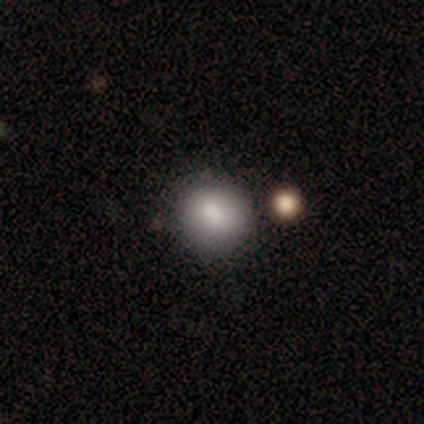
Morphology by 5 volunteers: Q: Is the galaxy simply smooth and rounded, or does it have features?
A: smooth — 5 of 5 (100%).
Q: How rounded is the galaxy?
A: round — 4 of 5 (80%).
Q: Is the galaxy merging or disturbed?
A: none — 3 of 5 (60%).